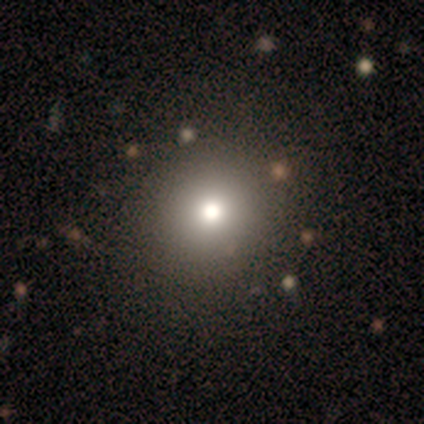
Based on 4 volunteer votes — This appears to be a smooth galaxy with no disk features (50%) that is round (100%). Merging: none (100%).